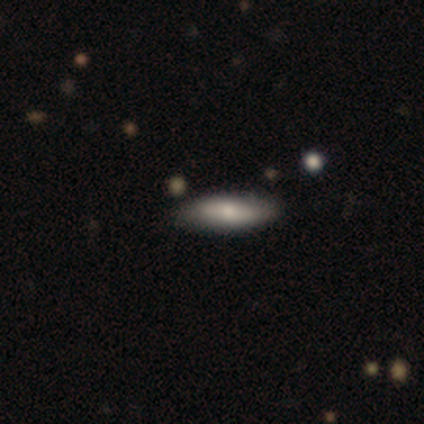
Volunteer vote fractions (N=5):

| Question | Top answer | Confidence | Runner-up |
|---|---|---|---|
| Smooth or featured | smooth | 80% | star or artifact (20%) |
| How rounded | in between | 50% | tied: cigar-shaped (50%) |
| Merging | none | 100% | — |